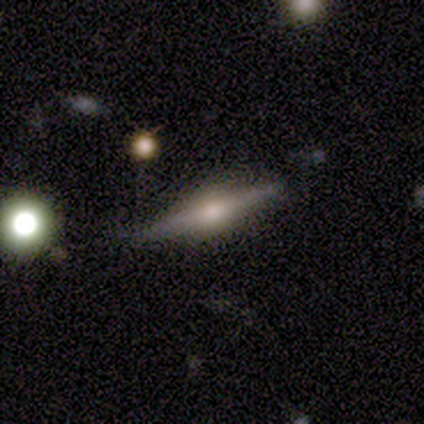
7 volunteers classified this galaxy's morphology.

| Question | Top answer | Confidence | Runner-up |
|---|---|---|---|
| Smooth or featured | featured or disk | 86% | smooth (14%) |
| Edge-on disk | yes | 100% | — |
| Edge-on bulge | rounded | 100% | — |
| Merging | none | 100% | — |